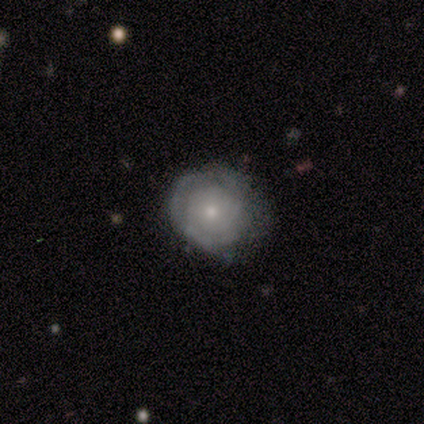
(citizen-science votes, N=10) Smooth or featured: featured or disk — 70% (smooth — 30%)
Edge-on disk: no — 100%
Bar: no — 100%
Spiral arms: yes — 71% (no — 29%)
Spiral winding: tight — 100%
Spiral arm count: can't tell — 80% (3 — 20%)
Bulge size: small — 71% (large — 14%)
Merging: none — 70% (minor disturbance — 20%)